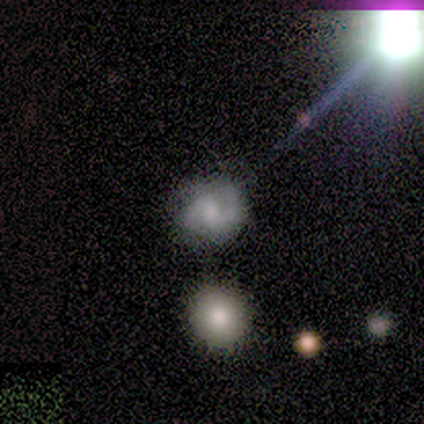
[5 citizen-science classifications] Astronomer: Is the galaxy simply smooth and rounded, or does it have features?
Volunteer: featured or disk — 80%.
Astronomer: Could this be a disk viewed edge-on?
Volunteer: no — 100%.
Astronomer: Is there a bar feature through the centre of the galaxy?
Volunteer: weak — 75%.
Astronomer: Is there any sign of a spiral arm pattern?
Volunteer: yes — 100%.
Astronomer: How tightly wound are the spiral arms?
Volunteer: medium — 50%.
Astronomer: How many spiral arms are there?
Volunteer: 2 — 100%.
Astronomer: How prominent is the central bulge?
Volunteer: moderate — 50%.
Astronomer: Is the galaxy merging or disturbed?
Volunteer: none — 80%.